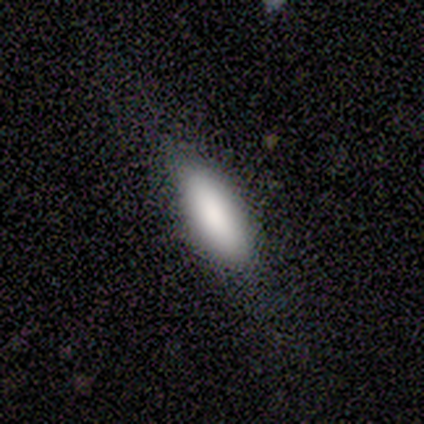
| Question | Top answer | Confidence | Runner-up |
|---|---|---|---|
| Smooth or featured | smooth | 50% | tied: featured or disk (50%) |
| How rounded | in between | 100% | — |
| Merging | none | 100% | — |